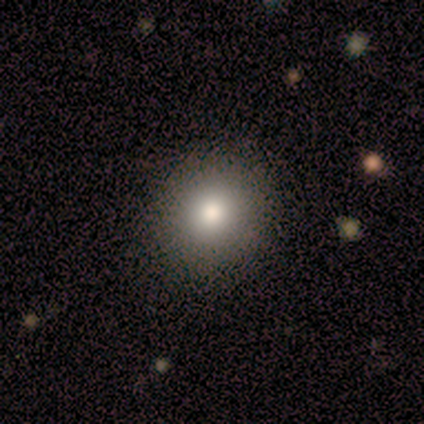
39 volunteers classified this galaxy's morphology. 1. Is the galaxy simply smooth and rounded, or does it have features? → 72% smooth, 21% featured or disk, 8% star or artifact.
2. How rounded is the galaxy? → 86% round, 14% in between, 0% cigar-shaped.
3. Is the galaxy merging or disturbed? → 92% none, 8% minor disturbance, 0% major disturbance, 0% merger.